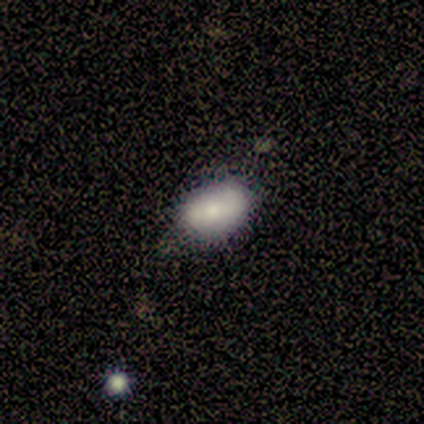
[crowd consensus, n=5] smooth-or-featured: smooth: 60% | featured or disk: 40% | star or artifact: 0%
  how-rounded: in between: 100% | round: 0% | cigar-shaped: 0%
  merging: none: 60% | minor disturbance: 20% | major disturbance: 20% | merger: 0%